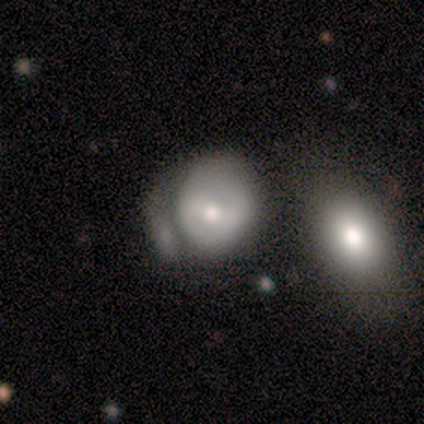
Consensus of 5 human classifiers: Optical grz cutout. It shows a smooth galaxy with no disk features (60%) that is round (67%). Merging: none (40%, tied with merger).